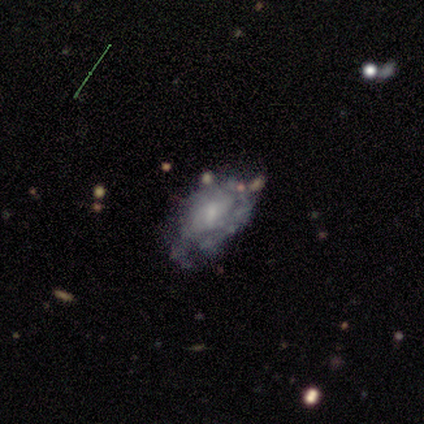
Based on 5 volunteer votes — A featured or disk galaxy (60%) with a weak bar (100%), 4 (50%, tied with can't tell) tight (100%) spiral arms (100%) and a small central bulge (50%, tied with none). Merging: none (60%).